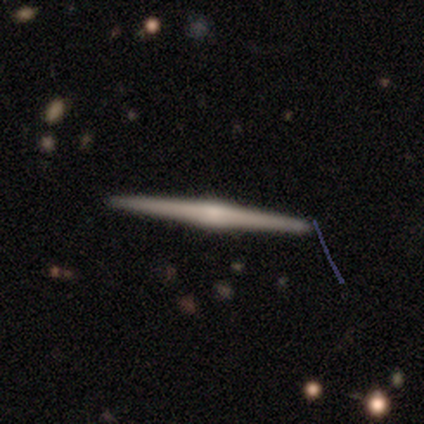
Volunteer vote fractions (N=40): Overall: featured or disk (82%). Edge-on disk: yes (97%). Edge-on bulge: rounded (78%). Merging: none (89%).